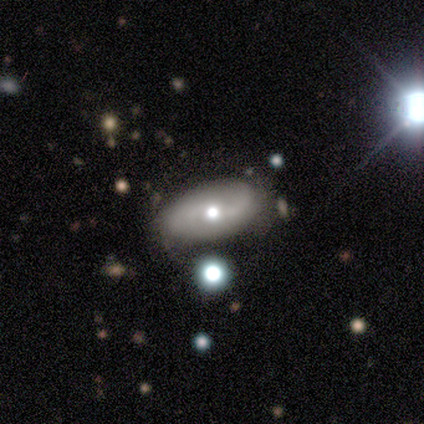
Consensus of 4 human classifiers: Volunteers were most divided on "spiral winding" (3-way tie): tight: 33%, medium: 33%, loose: 33%. More confident: smooth or featured — featured or disk (100%); edge-on disk — no (100%); bar — no (100%); spiral arms — yes (75%); bulge size — moderate (75%); merging — none (75%); spiral arm count — 2 (67%).